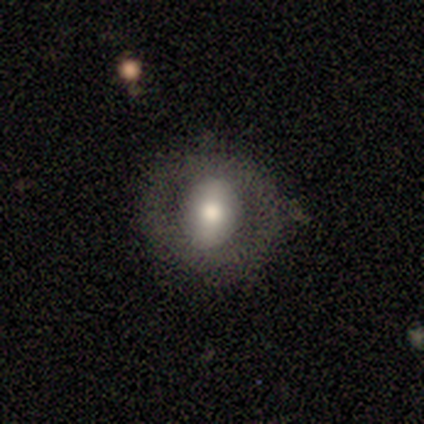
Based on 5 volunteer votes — Q: Smooth or featured?
A: smooth (80%); runner-up: featured or disk (20%)
Q: How rounded?
A: round (75%); runner-up: in between (25%)
Q: Merging?
A: minor disturbance (60%); runner-up: none (40%)